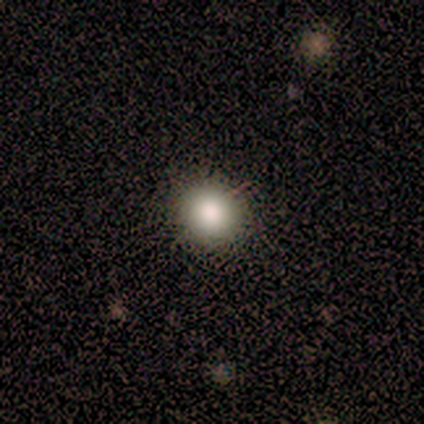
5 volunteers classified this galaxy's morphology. type=smooth (80%); roundness=round (100%); merging=none (100%).